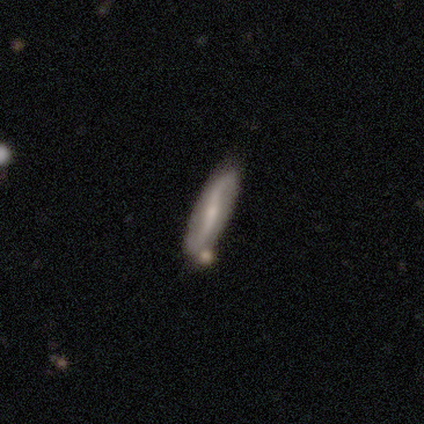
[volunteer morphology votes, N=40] A featured or disk galaxy (82%) with no bar (44%), 2 (100%) loose (100%) spiral arms (93%) and a small central bulge (52%).

Vote fractions:
- Smooth or featured? featured or disk: 82% / smooth: 18% / star or artifact: 0%
- Edge-on disk? no: 82% / yes: 18%
- Bar? no: 44% / weak: 30% / strong: 26%
- Spiral arms? yes: 93% / no: 7%
- Spiral winding? loose: 100% / tight: 0% / medium: 0%
- Spiral arm count? 2: 100% / 1: 0% / 3: 0% / 4: 0% / more than 4: 0% / can't tell: 0%
- Bulge size? small: 52% / moderate: 33% / none: 15% / dominant: 0% / large: 0%
- Merging? none: 57% / merger: 15% / minor disturbance: 5% / major disturbance: 2%